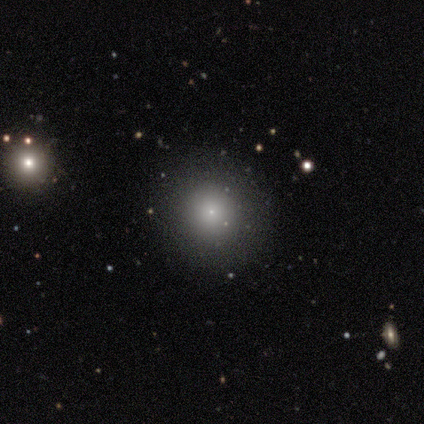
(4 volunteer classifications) Consensus on every question: smooth or featured — smooth (100%); how rounded — round (100%); merging — none (100%).